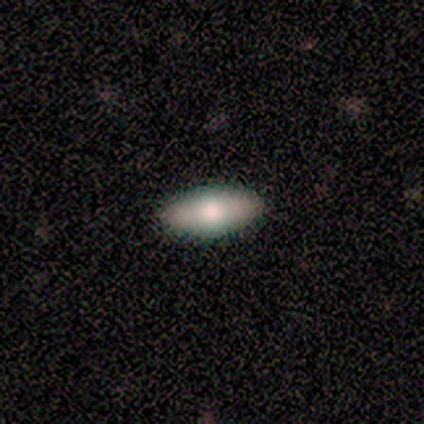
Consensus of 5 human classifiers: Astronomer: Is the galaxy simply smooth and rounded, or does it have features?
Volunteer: smooth — 100%.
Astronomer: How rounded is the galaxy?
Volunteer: in between — 100%.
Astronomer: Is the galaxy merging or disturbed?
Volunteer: none — 100%.